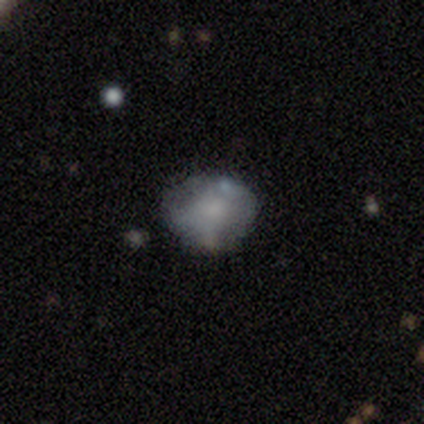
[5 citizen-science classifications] smooth-or-featured: featured or disk: 60% | smooth: 40% | star or artifact: 0%
  disk-edge-on: no: 67% | yes: 33%
    bar: no: 100% | strong: 0% | weak: 0%
    has-spiral-arms: no: 100% | yes: 0%
    bulge-size: small: 50% (tied) | none: 50% (tied) | dominant: 0% | large: 0% | moderate: 0%
  merging: none: 60% | minor disturbance: 40% | major disturbance: 0% | merger: 0%